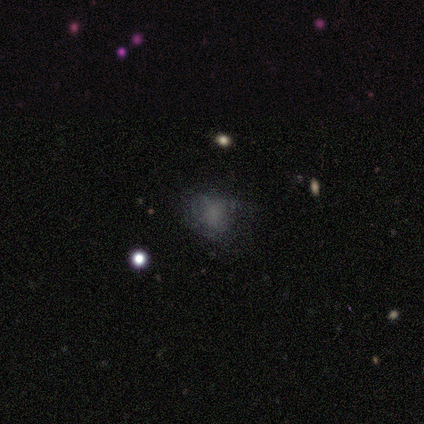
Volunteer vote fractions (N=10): Smooth or featured? smooth (80%)
How rounded? round (75%)
Merging? none (89%)